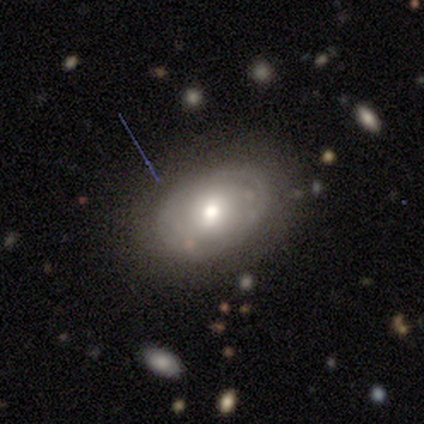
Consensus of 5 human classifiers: Volunteers were most divided on "smooth or featured": featured or disk: 60%, smooth: 40%, star or artifact: 0%. More confident: edge-on disk — no (100%); bar — no (100%); spiral arms — no (100%); merging — none (80%); bulge size — small (67%).